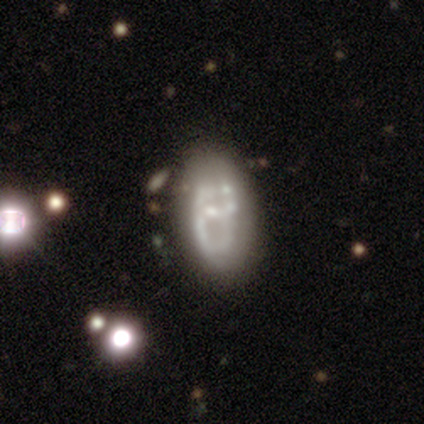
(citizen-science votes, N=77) smooth-or-featured: featured or disk: 71% | smooth: 26% | star or artifact: 3%
  disk-edge-on: no: 98% | yes: 2%
    bar: no: 72% | weak: 20% | strong: 7%
    has-spiral-arms: no: 70% | yes: 30%
    bulge-size: small: 52% | none: 24% | moderate: 20% | large: 4% | dominant: 0%
  merging: none: 27% | merger: 23% | minor disturbance: 7% | major disturbance: 7%